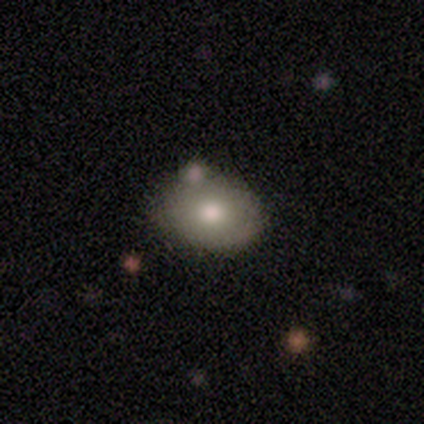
Volunteers were most divided on "merging": none: 50%, minor disturbance: 25%, merger: 25%, major disturbance: 0%. More confident: how rounded — in between (100%); smooth or featured — smooth (75%).